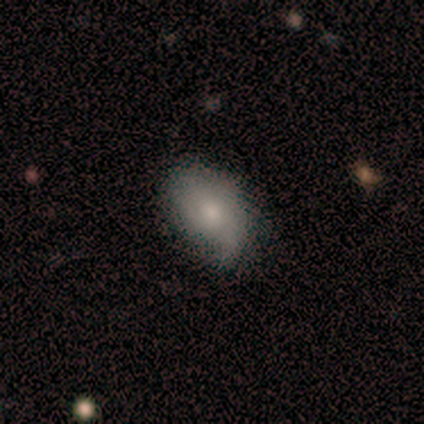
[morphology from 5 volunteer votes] Overall: smooth (60%; featured or disk 40%). How rounded: in between (100%). Merging: minor disturbance (60%; none 40%).